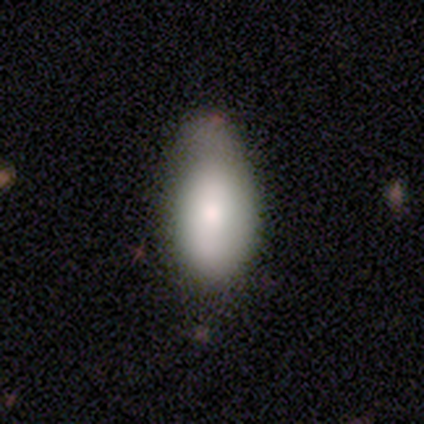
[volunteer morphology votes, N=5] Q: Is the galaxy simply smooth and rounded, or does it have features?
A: smooth — 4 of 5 (80%).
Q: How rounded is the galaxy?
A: in between — 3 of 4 (75%).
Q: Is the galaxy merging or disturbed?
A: none — 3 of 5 (60%).